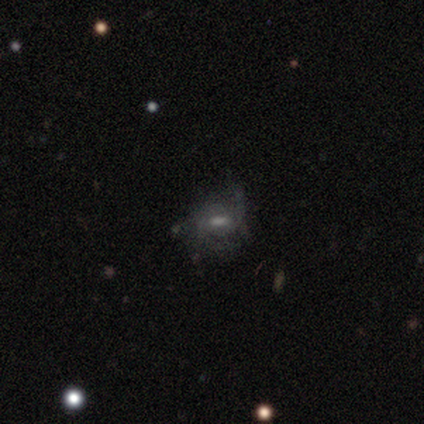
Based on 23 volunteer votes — This is marginally a featured or disk galaxy (43%). It is clearly not viewed edge-on (100%). Bar: likely no (60%). Spiral arm pattern: likely no (60%). Central bulge: marginally small (40%). Merging: likely none (63%).